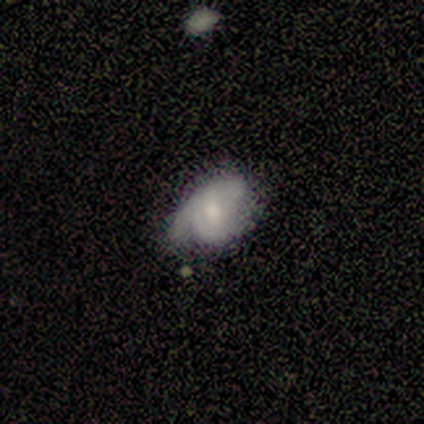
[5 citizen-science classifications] A smooth galaxy with no disk features (100%) that is in between round and cigar-shaped (100%). Merging: minor disturbance (60%).